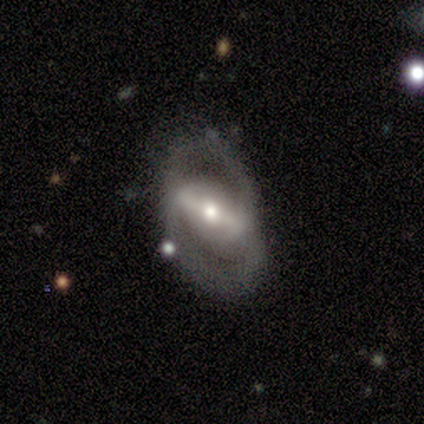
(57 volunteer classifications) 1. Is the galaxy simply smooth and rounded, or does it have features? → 79% featured or disk, 16% smooth, 5% star or artifact.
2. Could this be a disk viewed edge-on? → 96% no, 4% yes.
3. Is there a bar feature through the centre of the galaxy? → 63% strong, 23% weak, 14% no.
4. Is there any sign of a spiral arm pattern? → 56% yes, 44% no.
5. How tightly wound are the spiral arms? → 42% loose, 38% medium, 21% tight.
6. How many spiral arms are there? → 62% 2, 38% can't tell, 0% 1, 0% 3, 0% 4, 0% more than 4.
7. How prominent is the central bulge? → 65% moderate, 21% large, 14% small, 0% dominant, 0% none.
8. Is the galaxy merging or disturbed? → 57% none, 24% major disturbance, 15% minor disturbance, 4% merger.